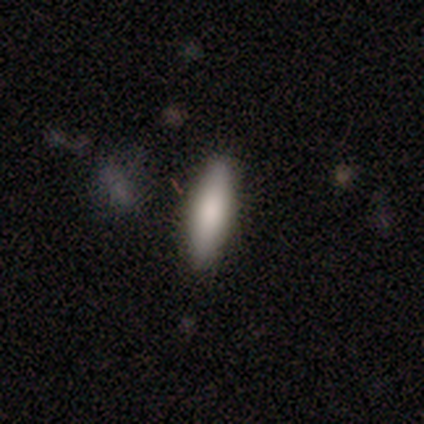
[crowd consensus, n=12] Smooth or featured? smooth (75%)
How rounded? cigar-shaped (67%)
Merging? none (100%)